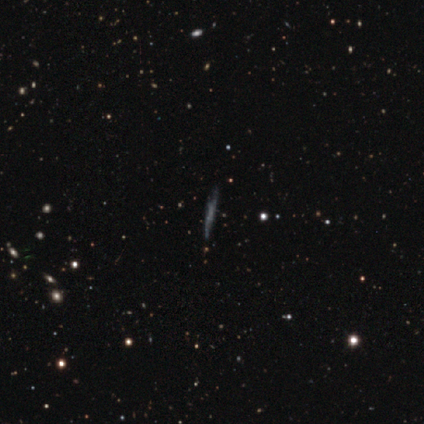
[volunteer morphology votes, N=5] Smooth or featured? 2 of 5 (40%, tied with featured or disk) said smooth. How rounded? 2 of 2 (100%) said cigar-shaped. Merging? 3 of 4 (75%) said none.